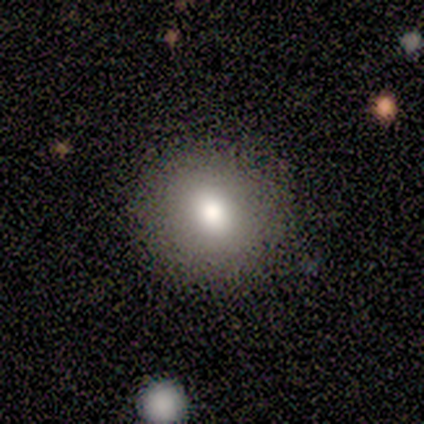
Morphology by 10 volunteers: This appears to be a smooth galaxy with no disk features (80%) that is round (88%). Merging: none (78%).